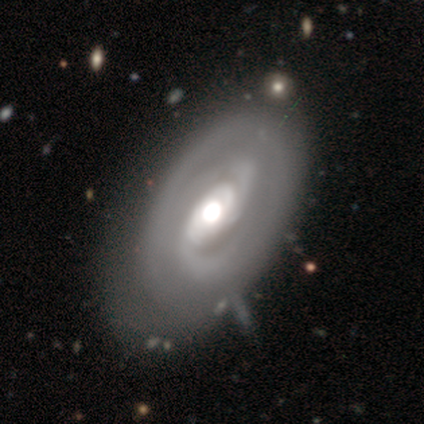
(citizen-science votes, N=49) This is clearly a featured or disk galaxy (84%). It is clearly not viewed edge-on (100%). Bar: marginally weak (41%). Spiral arm pattern: clearly yes (95%). Spiral arm count: possibly 2 (59%). Spiral winding: possibly tight (59%). Central bulge: possibly moderate (54%). Merging: likely none (62%).